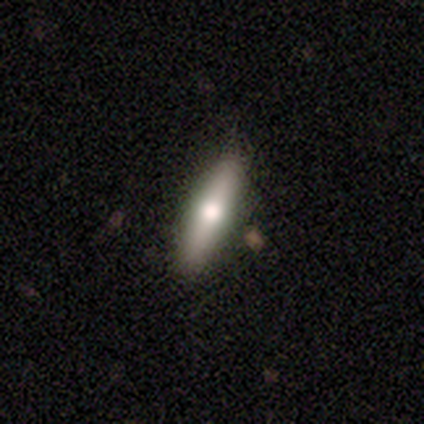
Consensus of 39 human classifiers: smooth 64%, featured or disk 33%, star or artifact 3%. Down the decision tree: how rounded — cigar-shaped (72%); merging — none (68%).